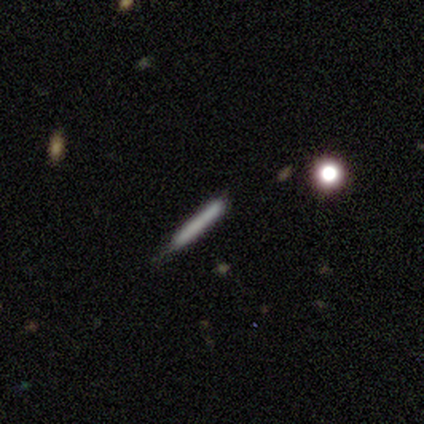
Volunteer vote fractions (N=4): Smooth or featured?
  - smooth: 75% *
  - featured or disk: 25%
  - star or artifact: 0%
How rounded?
  - cigar-shaped: 100% *
  - round: 0%
  - in between: 0%
Merging?
  - none: 50% * (tied)
  - minor disturbance: 50% * (tied)
  - major disturbance: 0%
  - merger: 0%